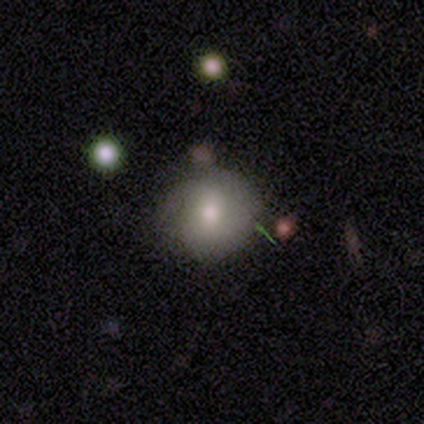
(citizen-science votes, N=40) This appears to be a smooth galaxy with no disk features (70%) that is round (89%). Merging: none (74%).